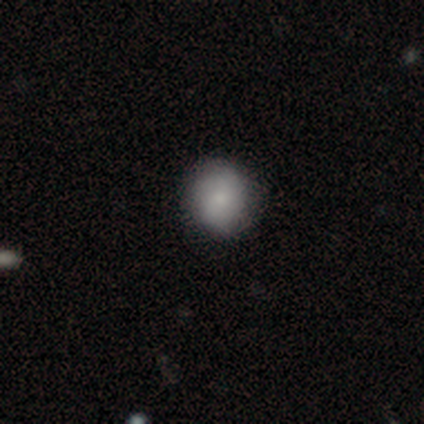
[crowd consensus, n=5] This appears to be a smooth galaxy with no disk features (80%) that is round (75%). Merging: none (100%).